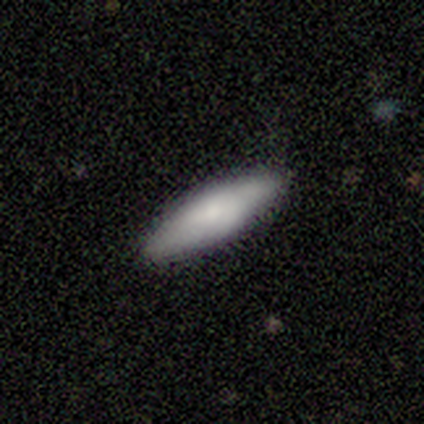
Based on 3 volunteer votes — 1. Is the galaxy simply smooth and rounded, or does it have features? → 67% smooth, 33% featured or disk, 0% star or artifact.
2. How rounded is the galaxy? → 100% cigar-shaped, 0% round, 0% in between.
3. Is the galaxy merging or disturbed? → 100% none, 0% minor disturbance, 0% major disturbance, 0% merger.